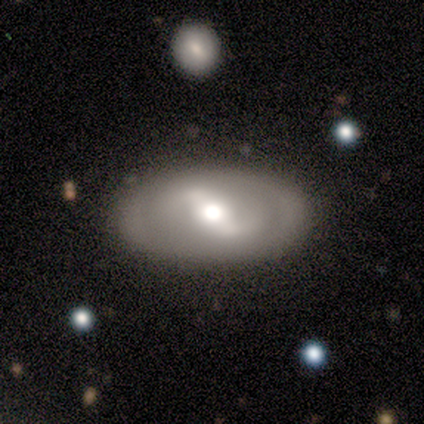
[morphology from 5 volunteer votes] A featured or disk galaxy (100%) with a weak bar (80%), 2 (75%) loose (50%) spiral arms (80%) and a moderate central bulge (60%).

Vote fractions:
- Smooth or featured? featured or disk: 100% / smooth: 0% / star or artifact: 0%
- Edge-on disk? no: 100% / yes: 0%
- Bar? weak: 80% / strong: 20% / no: 0%
- Spiral arms? yes: 80% / no: 20%
- Spiral winding? loose: 50% / tight: 25% / medium: 25%
- Spiral arm count? 2: 75% / can't tell: 25% / 1: 0% / 3: 0% / 4: 0% / more than 4: 0%
- Bulge size? moderate: 60% / large: 40% / dominant: 0% / small: 0% / none: 0%
- Merging? none: 100% / minor disturbance: 0% / major disturbance: 0% / merger: 0%